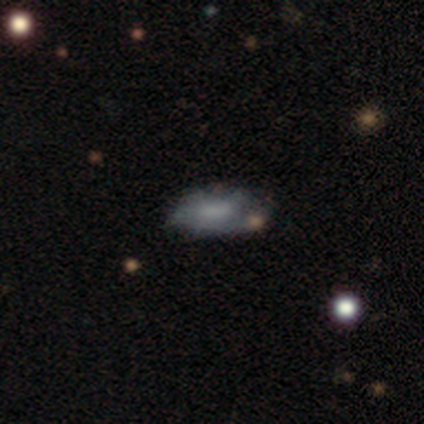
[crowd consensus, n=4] This is likely a smooth galaxy (75%). How rounded: clearly in between (100%). Merging: possibly minor disturbance (50%).